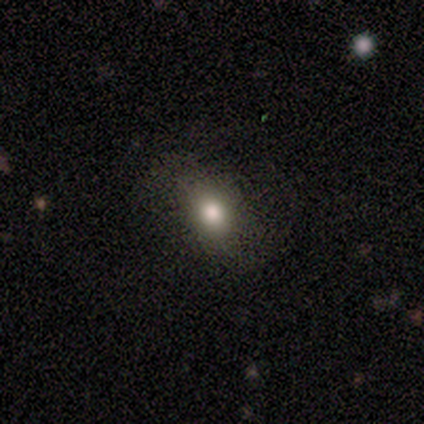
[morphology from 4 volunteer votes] smooth_or_featured: star or artifact (p=0.50) [alt: smooth p=0.25]